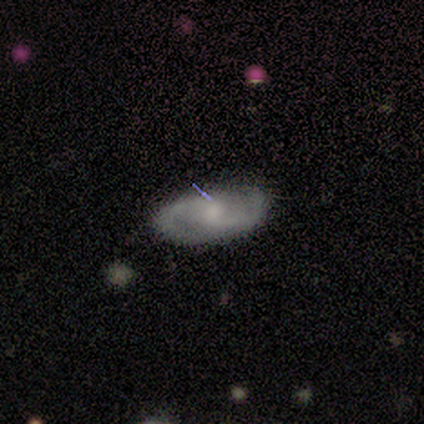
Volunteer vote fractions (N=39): Smooth or featured? 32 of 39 (82%) said featured or disk. Edge-on disk? 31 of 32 (97%) said no. Bar? 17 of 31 (55%) said weak. Spiral arms? 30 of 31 (97%) said yes. Spiral winding? 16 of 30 (53%) said medium. Spiral arm count? 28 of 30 (93%) said 2. Bulge size? 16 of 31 (52%) said small. Merging? 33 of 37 (89%) said none.